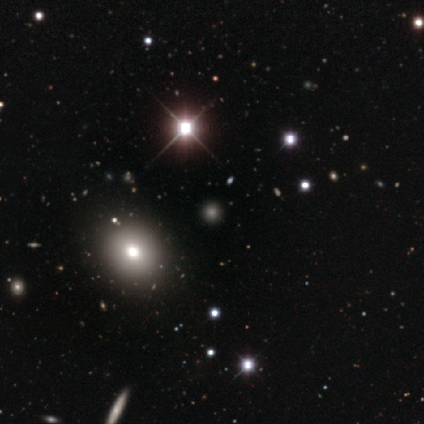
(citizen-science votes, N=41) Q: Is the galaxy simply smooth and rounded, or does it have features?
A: smooth — 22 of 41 (54%).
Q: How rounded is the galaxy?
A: round — 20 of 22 (91%).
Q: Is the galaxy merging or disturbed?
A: none — 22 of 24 (92%).